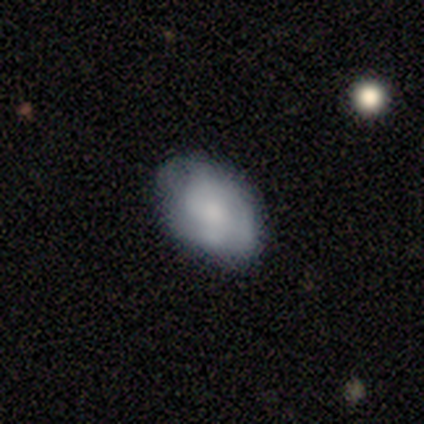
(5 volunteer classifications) Morphology: type=smooth (60%); roundness=in between (67%); merging=none (75%).